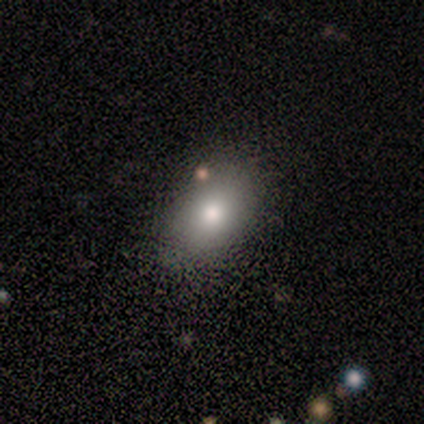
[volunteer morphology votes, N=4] type=smooth (100%); roundness=in between (75%); merging=none (75%).